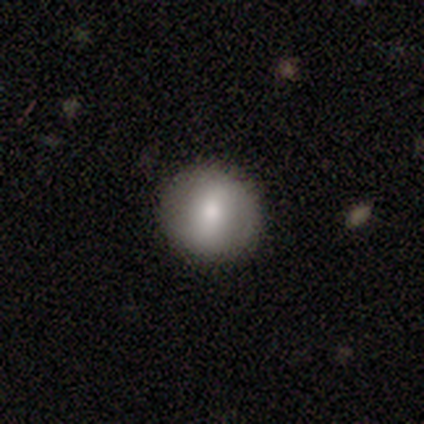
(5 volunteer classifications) A smooth galaxy with no disk features (80%) that is round (100%).

Vote fractions:
- Smooth or featured? smooth: 80% / featured or disk: 20% / star or artifact: 0%
- How rounded? round: 100% / in between: 0% / cigar-shaped: 0%
- Merging? none: 100% / minor disturbance: 0% / major disturbance: 0% / merger: 0%